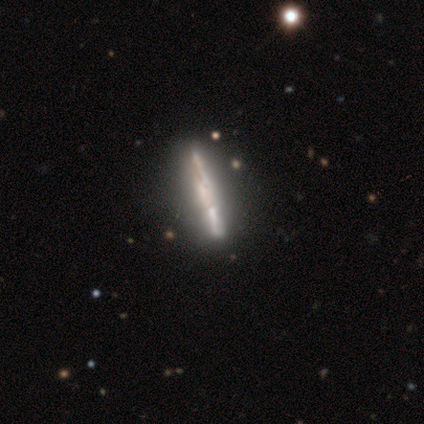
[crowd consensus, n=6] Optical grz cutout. It shows a featured or disk galaxy (100%) viewed edge-on (100%) with no central bulge (67%). Merging: none (83%).